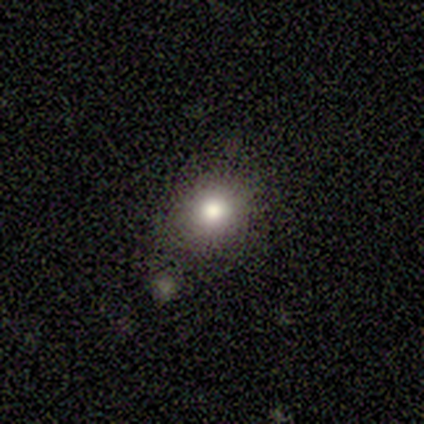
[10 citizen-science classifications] Q: Smooth or featured?
A: smooth (80%); runner-up: star or artifact (20%)
Q: How rounded?
A: round (75%); runner-up: in between (25%)
Q: Merging?
A: none (100%)